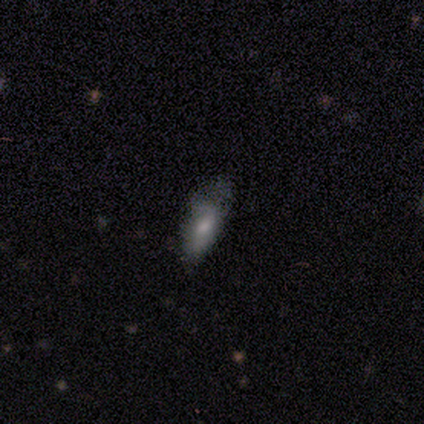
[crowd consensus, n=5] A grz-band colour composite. It shows a smooth galaxy with no disk features (80%) that is in between round and cigar-shaped (75%). Merging: minor disturbance (60%).